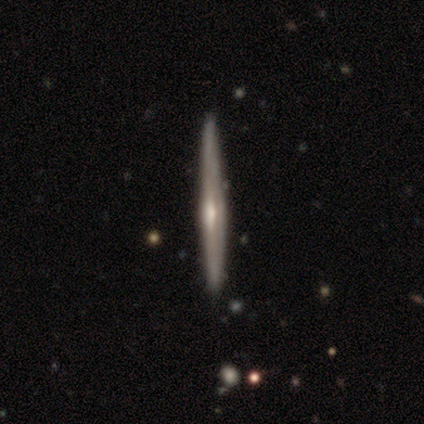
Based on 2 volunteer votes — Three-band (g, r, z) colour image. It shows a smooth galaxy with no disk features (50%, tied with featured or disk) that is cigar-shaped (100%). Merging: none (100%).